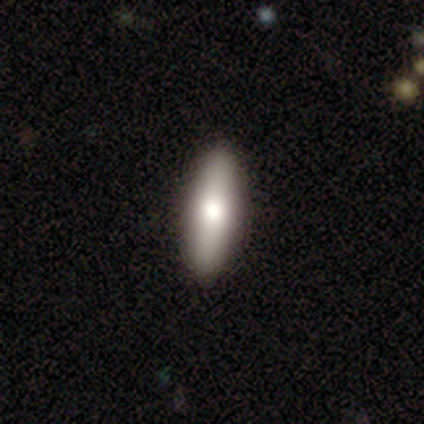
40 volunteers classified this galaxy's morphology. smooth_or_featured: smooth (p=0.62) [alt: featured or disk p=0.33]
how_rounded: cigar-shaped (p=0.56) [alt: in between p=0.44]
merging: none (p=0.92) [alt: minor disturbance p=0.08]